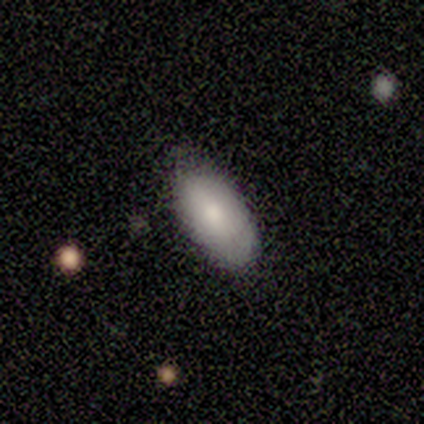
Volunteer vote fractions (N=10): smooth_or_featured: smooth (p=0.90) [alt: star or artifact p=0.10]
how_rounded: in between (p=0.89) [alt: cigar-shaped p=0.11]
merging: none (p=1.00)